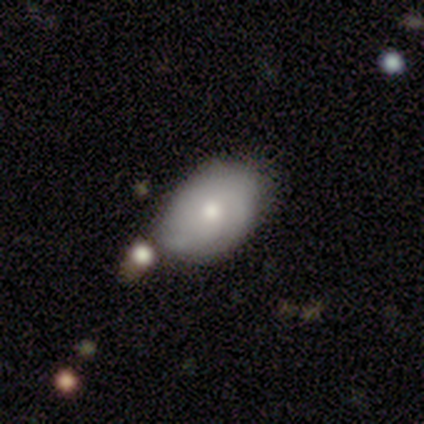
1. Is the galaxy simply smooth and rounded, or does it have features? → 56% smooth, 41% featured or disk, 3% star or artifact.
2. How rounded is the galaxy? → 100% in between, 0% round, 0% cigar-shaped.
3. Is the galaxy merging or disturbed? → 47% none, 34% minor disturbance, 16% merger, 3% major disturbance.